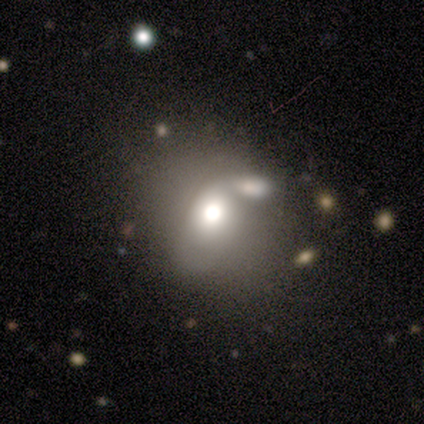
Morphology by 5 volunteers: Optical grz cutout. It shows a smooth galaxy with no disk features (80%) that is in between round and cigar-shaped (75%). Merging: merger (100%).